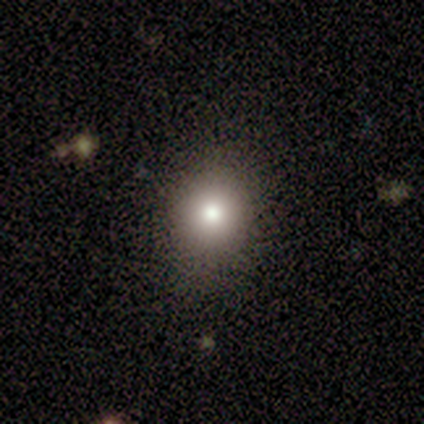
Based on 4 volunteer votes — This is likely a smooth galaxy (75%). How rounded: clearly round (100%). Merging: clearly none (100%).